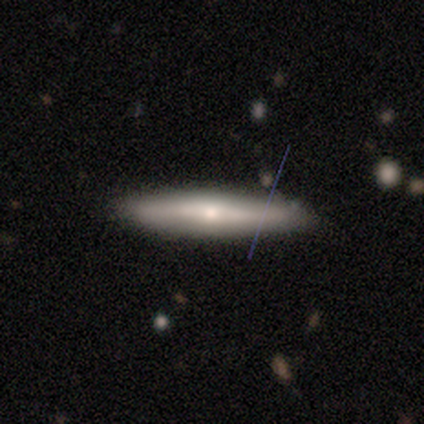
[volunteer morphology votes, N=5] A smooth galaxy with no disk features (40%, tied with featured or disk) that is in between round and cigar-shaped (50%, tied with cigar-shaped). Merging: none (100%).